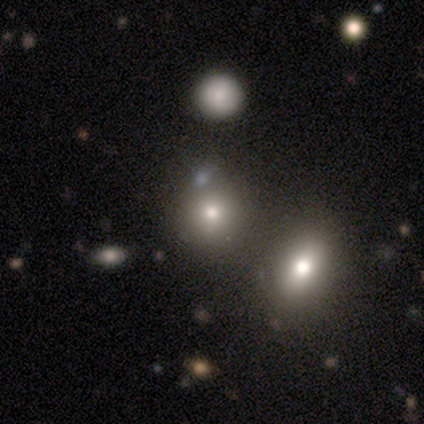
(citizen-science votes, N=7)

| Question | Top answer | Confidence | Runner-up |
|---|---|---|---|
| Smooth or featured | smooth | 86% | featured or disk (14%) |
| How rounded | round | 100% | — |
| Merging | none | 86% | merger (14%) |